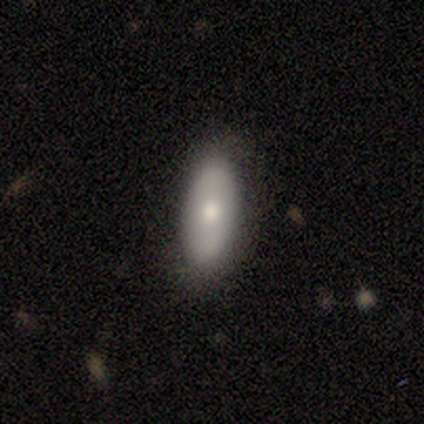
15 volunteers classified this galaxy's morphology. Q: Smooth or featured?
A: smooth (73%); runner-up: featured or disk (20%)
Q: How rounded?
A: in between (82%); runner-up: cigar-shaped (18%)
Q: Merging?
A: none (86%); runner-up: minor disturbance (14%)